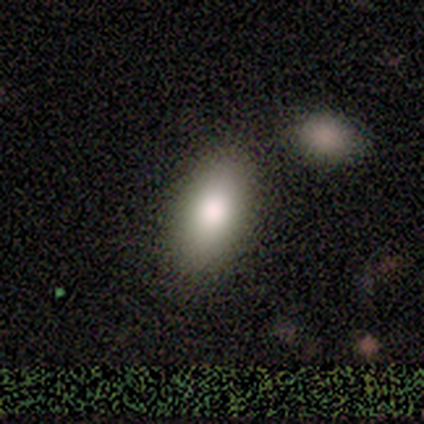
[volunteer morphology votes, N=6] smooth_or_featured: smooth (p=0.83) [alt: featured or disk p=0.17]
how_rounded: in between (p=1.00)
merging: none (p=0.83) [alt: merger p=0.17]